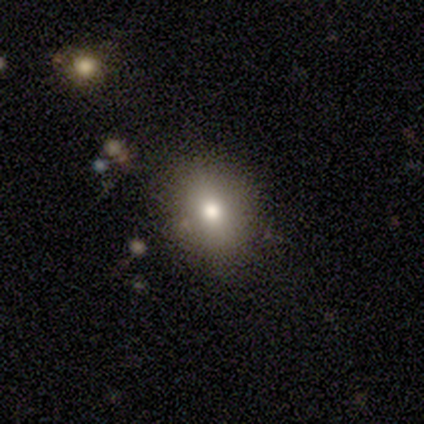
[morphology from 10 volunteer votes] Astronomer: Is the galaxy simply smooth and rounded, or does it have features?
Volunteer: smooth — 90%.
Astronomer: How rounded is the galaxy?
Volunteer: round — 56% (runner-up: in between, 44%).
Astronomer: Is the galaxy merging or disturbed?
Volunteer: none — 89%.